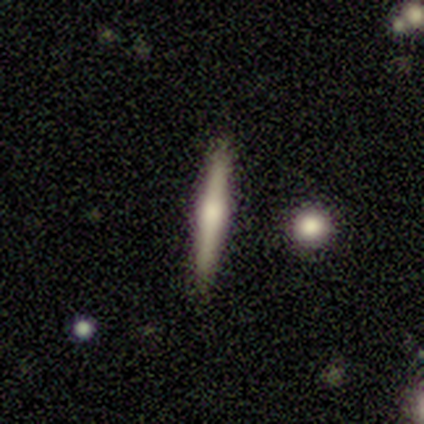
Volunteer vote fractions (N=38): smooth_or_featured: smooth (p=0.50) [alt: featured or disk p=0.45]
how_rounded: cigar-shaped (p=1.00)
merging: none (p=0.92) [alt: minor disturbance p=0.06]